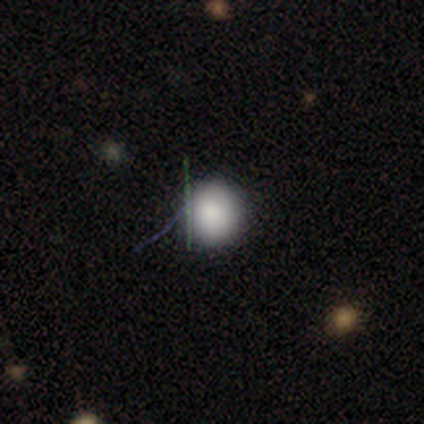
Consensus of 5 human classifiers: Morphology: type=smooth (80%); roundness=round (100%); merging=none (100%).